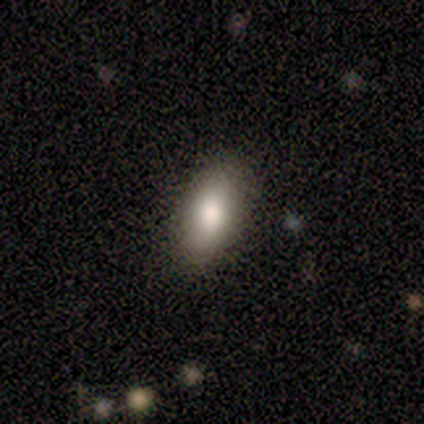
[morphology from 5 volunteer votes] Overall: smooth (60%; featured or disk 20%). How rounded: in between (100%). Merging: none (100%).